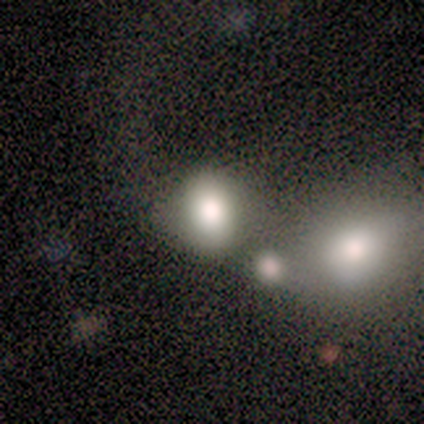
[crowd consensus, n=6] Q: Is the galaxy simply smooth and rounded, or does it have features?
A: smooth — 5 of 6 (83%).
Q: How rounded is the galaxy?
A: in between — 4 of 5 (80%).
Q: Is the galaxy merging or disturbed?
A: none — 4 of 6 (67%).